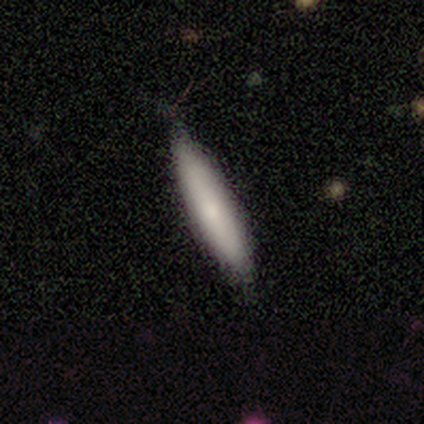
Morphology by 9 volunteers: This appears to be a smooth galaxy with no disk features (100%) that is cigar-shaped (89%). Merging: none (78%).